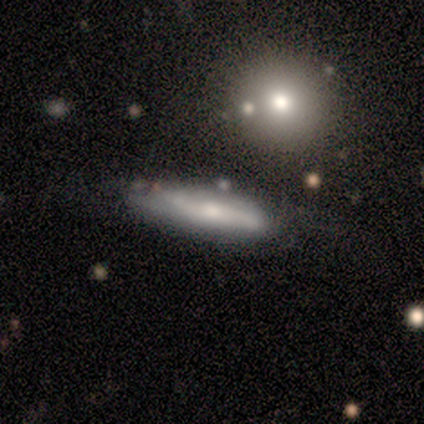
smooth 60%, featured or disk 40%, star or artifact 0%. Down the decision tree: how rounded — cigar-shaped (100%); merging — none (60%).